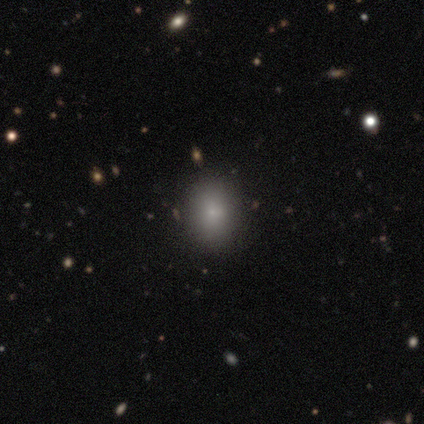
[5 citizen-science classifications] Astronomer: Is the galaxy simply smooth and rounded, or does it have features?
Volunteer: smooth — 60%.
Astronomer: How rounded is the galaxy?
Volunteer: round — 67%.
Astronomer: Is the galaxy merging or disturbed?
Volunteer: minor disturbance — 75%.